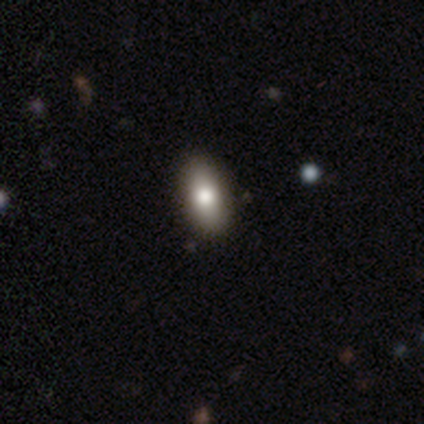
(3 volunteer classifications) Overall: smooth (67%; featured or disk 33%). How rounded: in between (100%). Merging: none (100%).